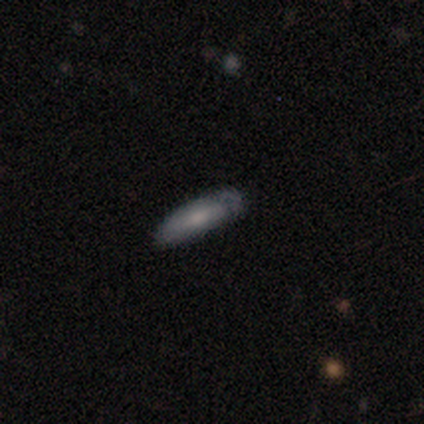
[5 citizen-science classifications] Morphology: type=smooth (60%); roundness=cigar-shaped (67%); merging=none (100%).